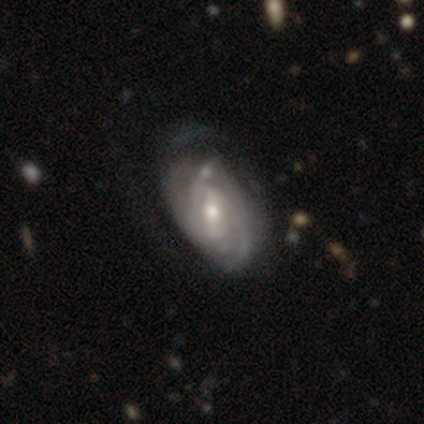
featured or disk 82%, smooth 11%, star or artifact 7%. Down the decision tree: edge-on disk — no (96%); bar — weak (62%); spiral arms — yes (98%); spiral arm count — 2 (36%); spiral winding — tight (61%); bulge size — moderate (49%, tied with small); merging — none (55%).